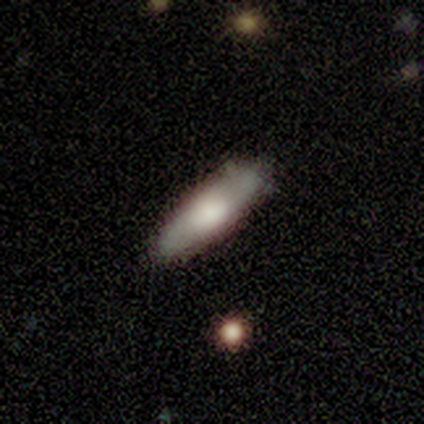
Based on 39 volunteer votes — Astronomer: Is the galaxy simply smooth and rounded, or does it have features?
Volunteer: smooth — 64%.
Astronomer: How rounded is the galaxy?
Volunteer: cigar-shaped — 56% (runner-up: in between, 44%).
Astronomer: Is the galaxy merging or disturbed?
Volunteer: none — 92%.